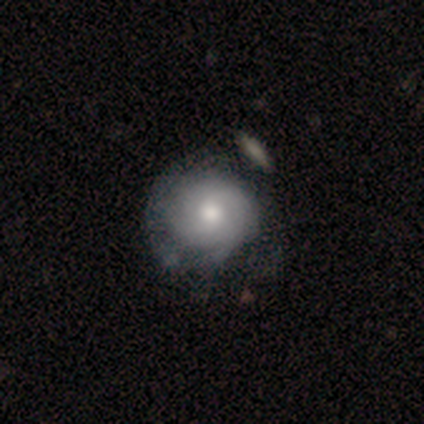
This is possibly a featured or disk galaxy (51%). It is clearly not viewed edge-on (100%). Bar: clearly no (90%). Spiral arm pattern: likely yes (65%). Spiral arm count: likely can't tell (77%). Spiral winding: clearly tight (92%). Central bulge: clearly moderate (80%). Merging: marginally none (37%).